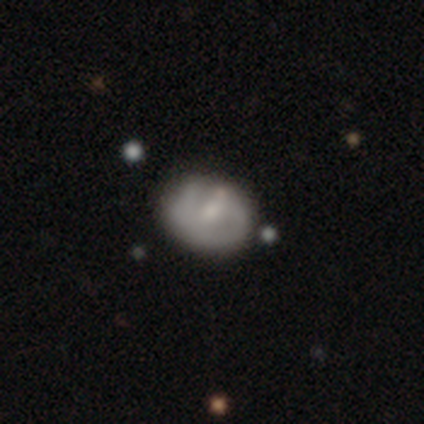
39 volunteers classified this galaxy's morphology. Smooth or featured? featured or disk (46%)
Edge-on disk? no (100%)
Bar? weak (56%)
Spiral arms? yes (50%, tied with no)
Spiral winding? tight (44%)
Spiral arm count? 1 (44%, tied with 2)
Bulge size? small (50%)
Merging? none (66%)